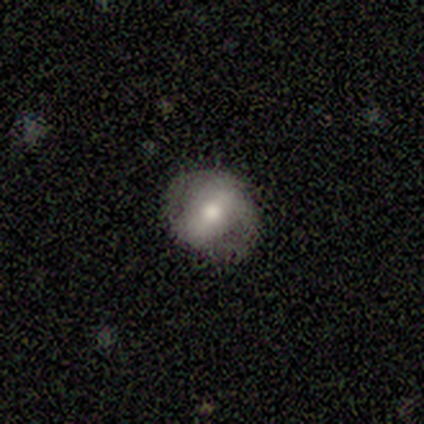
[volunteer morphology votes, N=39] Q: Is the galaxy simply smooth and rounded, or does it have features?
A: featured or disk — 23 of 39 (59%).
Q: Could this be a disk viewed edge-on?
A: no — 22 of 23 (96%).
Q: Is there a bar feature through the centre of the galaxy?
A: strong — 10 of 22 (45%).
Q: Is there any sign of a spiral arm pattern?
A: no — 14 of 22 (64%).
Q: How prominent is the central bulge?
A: moderate — 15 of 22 (68%).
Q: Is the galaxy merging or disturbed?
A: none — 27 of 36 (75%).